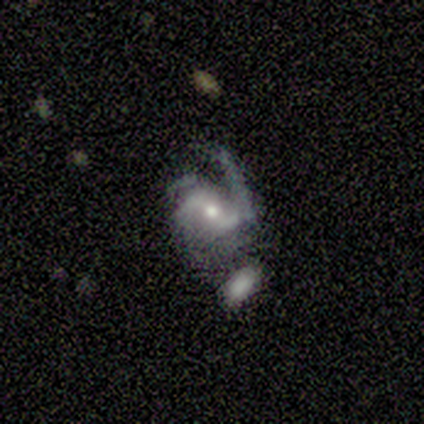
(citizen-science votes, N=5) Volunteers were most divided on "merging" (2-way tie): minor disturbance: 40%, merger: 40%, none: 20%, major disturbance: 0%. More confident: smooth or featured — featured or disk (100%); edge-on disk — no (100%); spiral arms — yes (100%); spiral winding — loose (60%); bulge size — moderate (60%); bar — weak (60%); spiral arm count — 2 (60%).